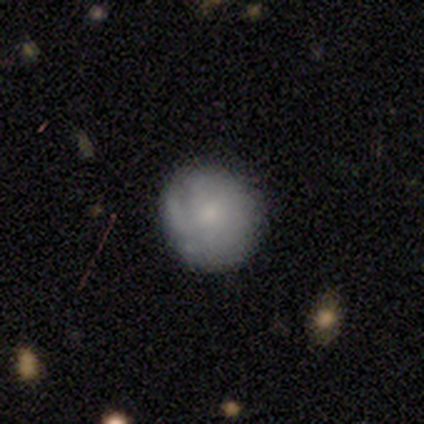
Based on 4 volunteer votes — Smooth or featured? smooth (75%)
How rounded? round (67%)
Merging? none (75%)